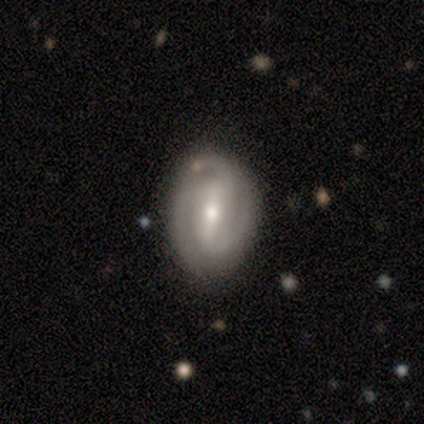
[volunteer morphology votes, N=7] Smooth or featured? 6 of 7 (86%) said featured or disk. Edge-on disk? 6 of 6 (100%) said no. Bar? 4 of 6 (67%) said weak. Spiral arms? 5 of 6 (83%) said yes. Spiral winding? 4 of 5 (80%) said medium. Spiral arm count? 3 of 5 (60%) said 2. Bulge size? 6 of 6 (100%) said small. Merging? 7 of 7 (100%) said none.